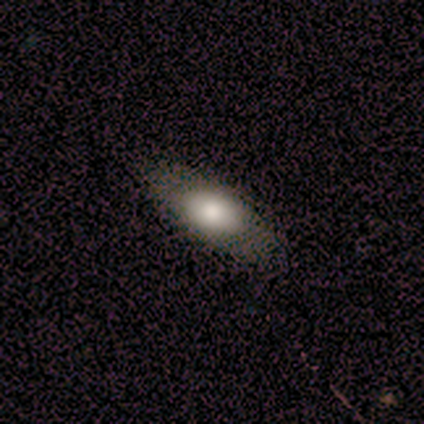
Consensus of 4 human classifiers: Volunteers were most divided on "how rounded": in between: 75%, cigar-shaped: 25%, round: 0%. More confident: smooth or featured — smooth (100%); merging — none (100%).